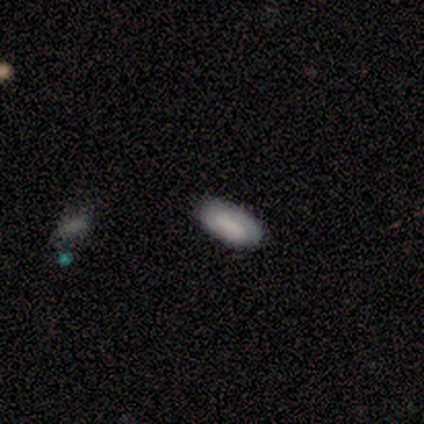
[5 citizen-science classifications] This is marginally a smooth galaxy (40%, tied with featured or disk). How rounded: clearly in between (100%). Merging: clearly none (100%).